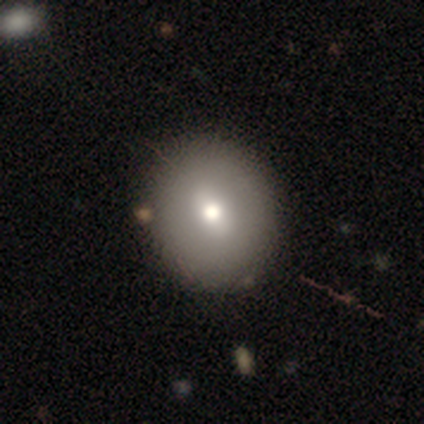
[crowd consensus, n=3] Smooth or featured: smooth — 67% (featured or disk — 33%)
How rounded: round — 100%
Merging: none — 100%